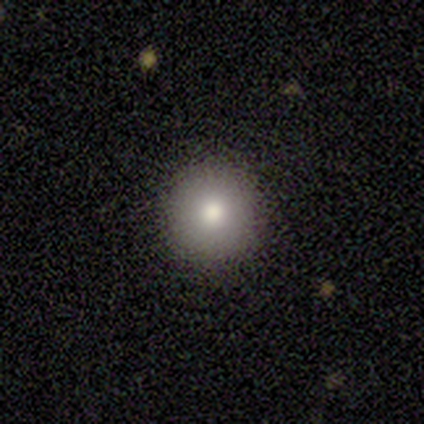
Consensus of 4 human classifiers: smooth 75%, featured or disk 25%, star or artifact 0%. Down the decision tree: how rounded — round (100%); merging — none (100%).